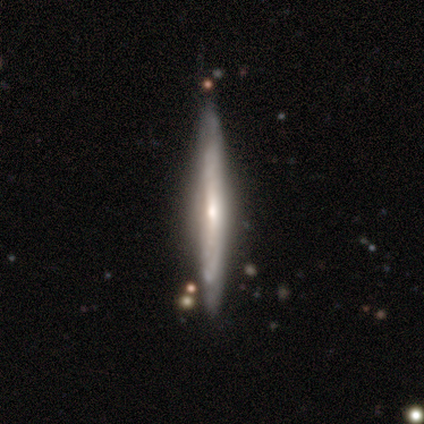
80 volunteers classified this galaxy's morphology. Smooth or featured? 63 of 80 (79%) said featured or disk. Edge-on disk? 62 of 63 (98%) said yes. Edge-on bulge? 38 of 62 (61%) said rounded. Merging? 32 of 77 (42%) said none.